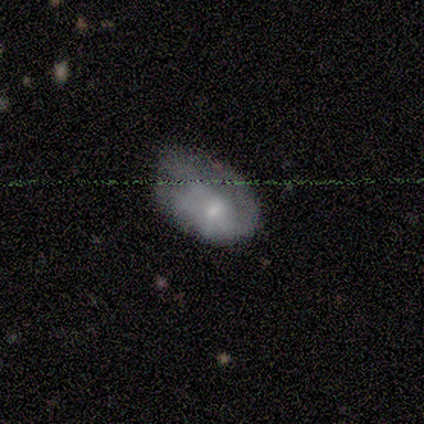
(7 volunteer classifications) Smooth or featured? 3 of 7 (43%, tied with featured or disk) said smooth. How rounded? 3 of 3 (100%) said in between. Merging? 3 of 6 (50%) said minor disturbance.